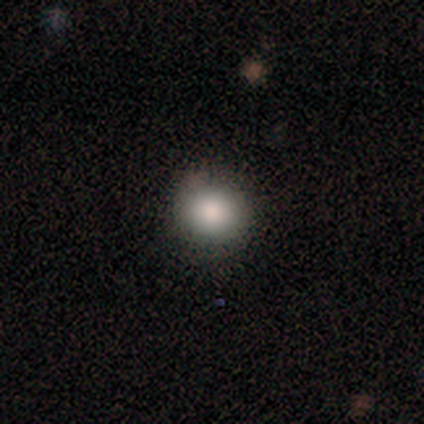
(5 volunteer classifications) A smooth galaxy with no disk features (100%) that is round (80%).

Vote fractions:
- Smooth or featured? smooth: 100% / featured or disk: 0% / star or artifact: 0%
- How rounded? round: 80% / in between: 20% / cigar-shaped: 0%
- Merging? none: 100% / minor disturbance: 0% / major disturbance: 0% / merger: 0%